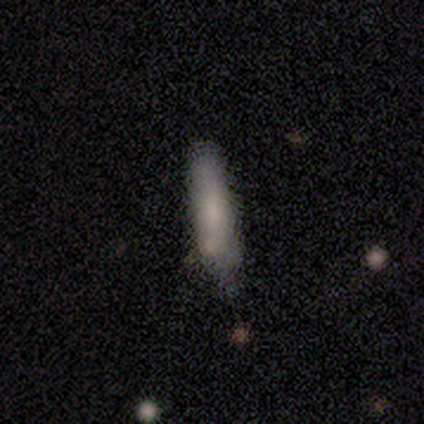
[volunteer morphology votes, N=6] Smooth or featured? smooth (83%)
How rounded? cigar-shaped (100%)
Merging? minor disturbance (60%)